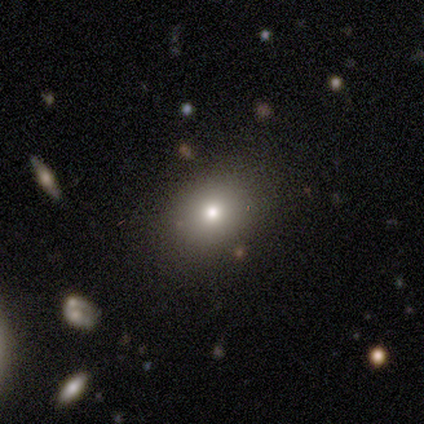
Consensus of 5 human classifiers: Smooth or featured? 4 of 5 (80%) said smooth. How rounded? 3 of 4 (75%) said round. Merging? 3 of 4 (75%) said none.